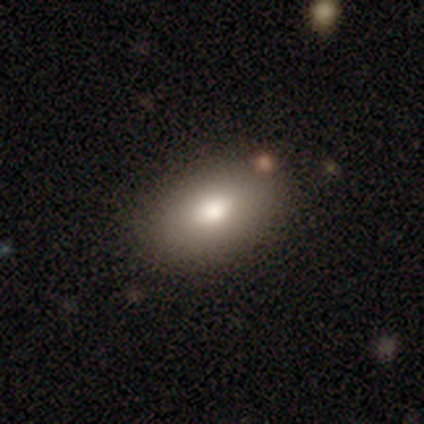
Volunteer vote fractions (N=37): smooth 78%, featured or disk 16%, star or artifact 5%. Down the decision tree: how rounded — in between (93%); merging — none (86%).